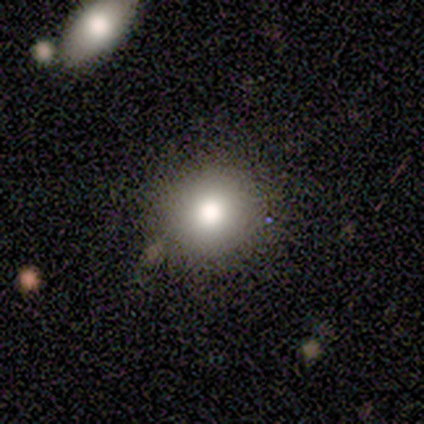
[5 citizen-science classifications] Smooth or featured?
  - smooth: 80% *
  - featured or disk: 20%
  - star or artifact: 0%
How rounded?
  - round: 100% *
  - in between: 0%
  - cigar-shaped: 0%
Merging?
  - none: 100% *
  - minor disturbance: 0%
  - major disturbance: 0%
  - merger: 0%